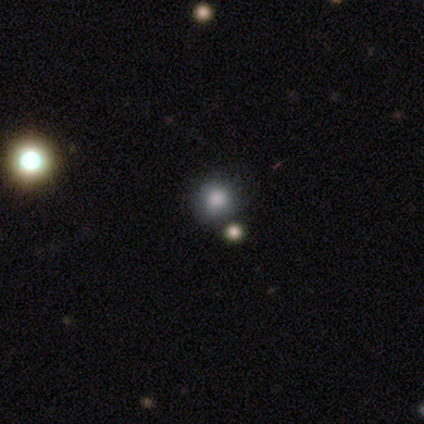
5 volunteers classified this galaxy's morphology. Smooth or featured: smooth — 100%
How rounded: round — 60% (in between — 40%)
Merging: none — 80% (merger — 20%)